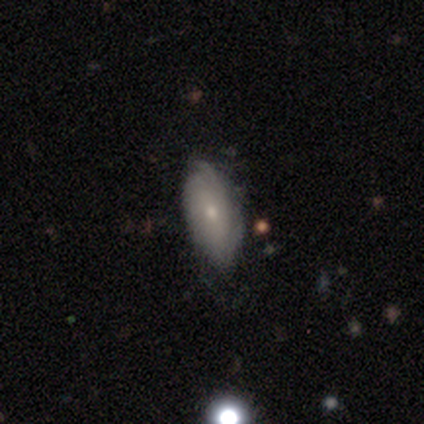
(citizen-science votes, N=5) This is clearly a featured or disk galaxy (80%). It is clearly not viewed edge-on (100%). Bar: clearly no (100%). Spiral arm pattern: likely yes (75%). Spiral arm count: likely can't tell (67%). Spiral winding: likely medium (67%). Central bulge: likely small (75%). Merging: clearly none (100%).